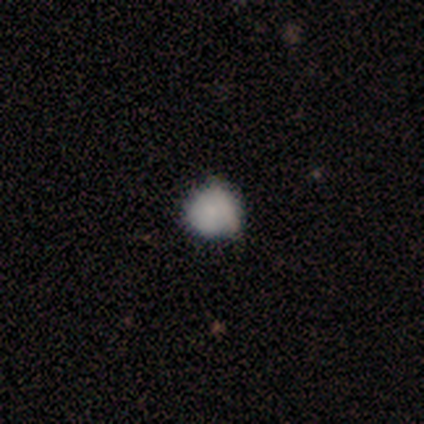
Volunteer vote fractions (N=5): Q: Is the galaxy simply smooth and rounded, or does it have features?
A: smooth — 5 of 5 (100%).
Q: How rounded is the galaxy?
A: round — 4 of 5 (80%).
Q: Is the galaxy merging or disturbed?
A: minor disturbance — 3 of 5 (60%).